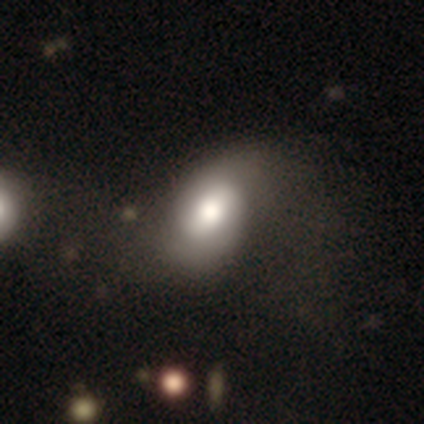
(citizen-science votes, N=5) A smooth galaxy with no disk features (60%) that is in between round and cigar-shaped (100%). Merging: minor disturbance (40%, tied with major disturbance).